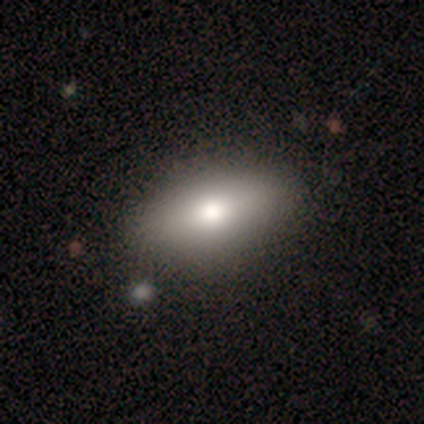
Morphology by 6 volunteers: A smooth galaxy with no disk features (100%) that is in between round and cigar-shaped (100%). Merging: none (83%).